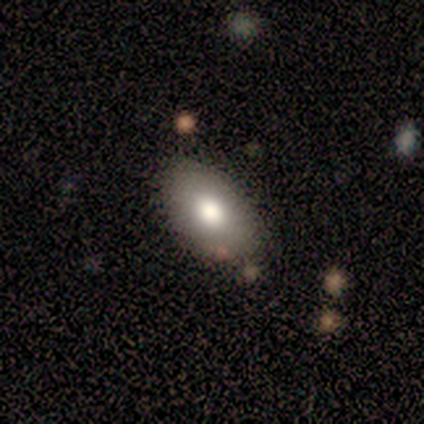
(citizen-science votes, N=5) This is clearly a smooth galaxy (100%). How rounded: clearly in between (100%). Merging: clearly none (100%).